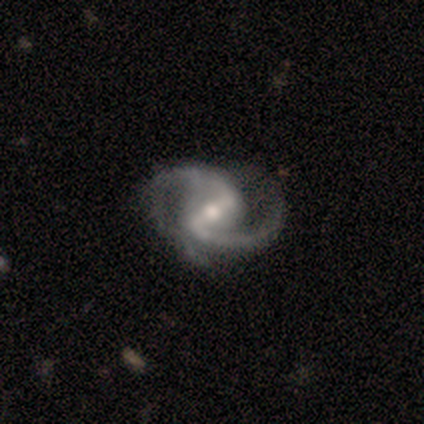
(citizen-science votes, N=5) Q: Smooth or featured?
A: featured or disk (100%)
Q: Edge-on disk?
A: no (100%)
Q: Bar?
A: strong (40%); tied with: weak (40%)
Q: Spiral arms?
A: yes (100%)
Q: Spiral winding?
A: medium (100%)
Q: Spiral arm count?
A: 2 (80%); runner-up: can't tell (20%)
Q: Bulge size?
A: moderate (80%); runner-up: small (20%)
Q: Merging?
A: none (40%); tied with: major disturbance (40%)